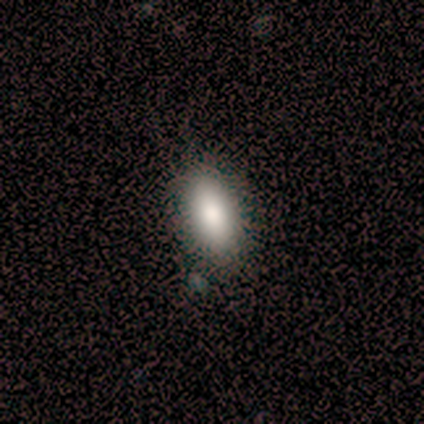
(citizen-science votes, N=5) Smooth or featured: smooth — 60% (featured or disk — 20%)
How rounded: in between — 67% (cigar-shaped — 33%)
Merging: none — 100%